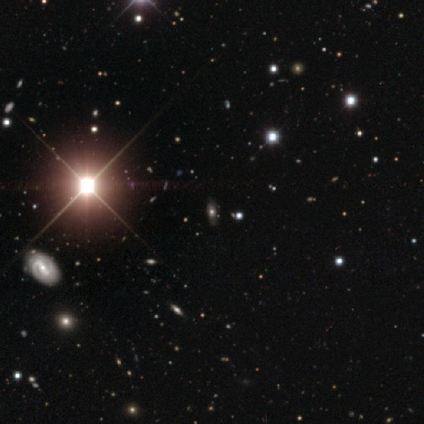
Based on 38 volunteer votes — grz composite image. It shows a star or artifact, not a galaxy (82%).